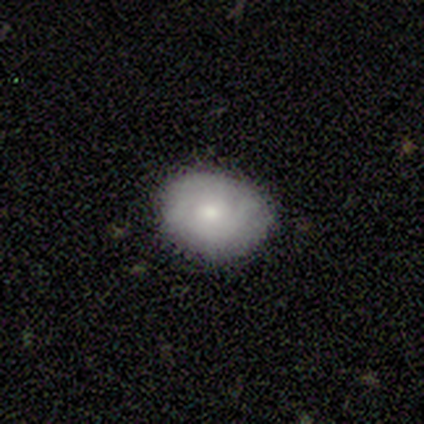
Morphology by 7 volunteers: Smooth or featured? 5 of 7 (71%) said smooth. How rounded? 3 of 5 (60%) said in between. Merging? 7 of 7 (100%) said none.